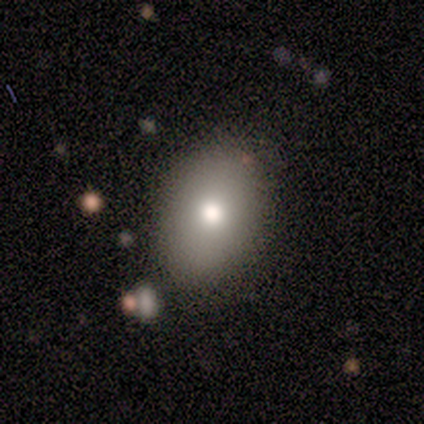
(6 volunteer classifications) Smooth or featured? 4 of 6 (67%) said smooth. How rounded? 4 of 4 (100%) said in between. Merging? 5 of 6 (83%) said none.